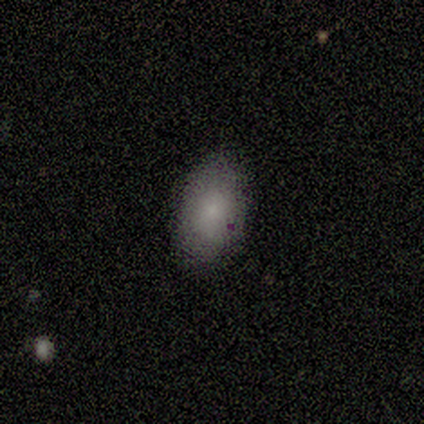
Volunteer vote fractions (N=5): Smooth or featured: smooth — 100%
How rounded: in between — 100%
Merging: none — 80% (minor disturbance — 20%)